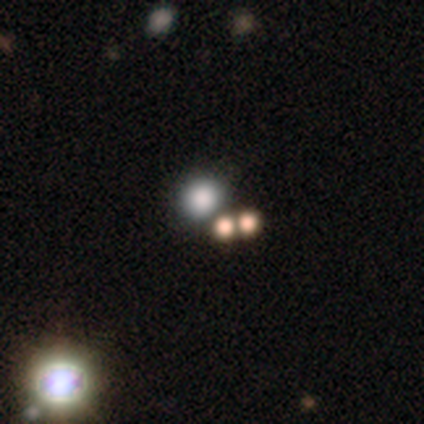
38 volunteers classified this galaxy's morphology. A smooth galaxy with no disk features (58%) that is round (82%).

Vote fractions:
- Smooth or featured? smooth: 58% / star or artifact: 34% / featured or disk: 8%
- How rounded? round: 82% / in between: 18% / cigar-shaped: 0%
- Merging? none: 76% / merger: 16% / minor disturbance: 8% / major disturbance: 0%